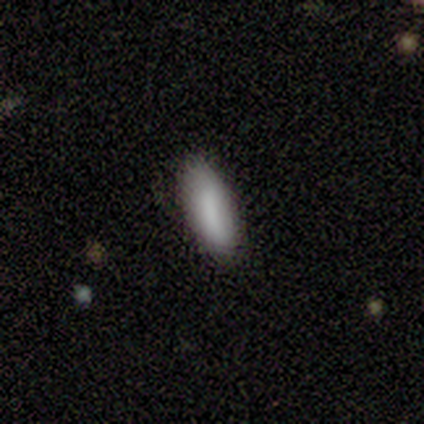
A smooth galaxy with no disk features (75%) that is in between round and cigar-shaped (67%).

Vote fractions:
- Smooth or featured? smooth: 75% / star or artifact: 25% / featured or disk: 0%
- How rounded? in between: 67% / cigar-shaped: 33% / round: 0%
- Merging? none: 67% / minor disturbance: 33% / major disturbance: 0% / merger: 0%